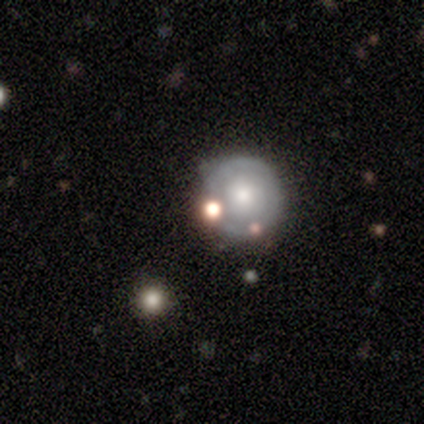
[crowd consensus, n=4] Smooth or featured: smooth — 100%
How rounded: round — 100%
Merging: none — 100%